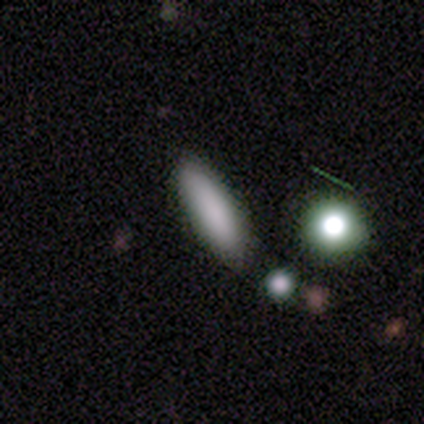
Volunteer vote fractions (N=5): Morphology: type=smooth (80%); roundness=in between (75%); merging=none (100%).